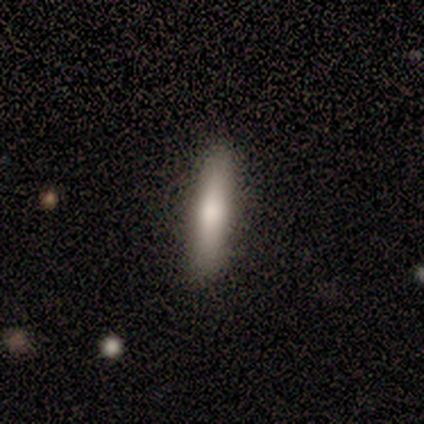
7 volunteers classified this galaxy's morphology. Overall: smooth (100%). How rounded: cigar-shaped (100%). Merging: none (86%).